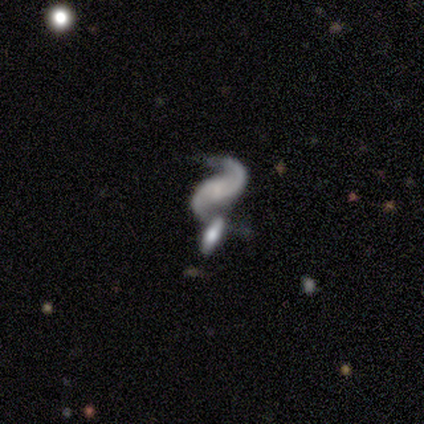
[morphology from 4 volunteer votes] type=featured or disk (100%); edge-on=no (100%); bar=no (75%); spiral arms=yes (100%); winding=medium (50%, tied with loose); arm count=2 (100%); bulge=small (50%); merging=merger (75%).